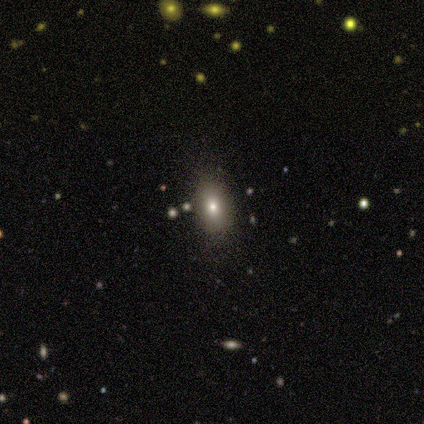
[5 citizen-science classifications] This appears to be a smooth galaxy with no disk features (60%) that is in between round and cigar-shaped (100%). Merging: none (100%).